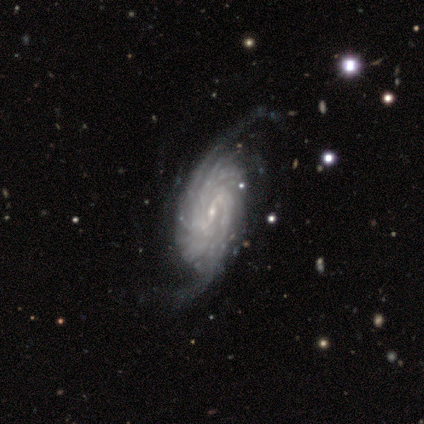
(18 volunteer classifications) Smooth or featured?
  - featured or disk: 100% *
  - smooth: 0%
  - star or artifact: 0%
Edge-on disk?
  - no: 100% *
  - yes: 0%
Bar?
  - weak: 78% *
  - strong: 22%
  - no: 0%
Spiral arms?
  - yes: 100% *
  - no: 0%
Spiral winding?
  - tight: 72% *
  - medium: 22%
  - loose: 6%
Spiral arm count?
  - can't tell: 44% *
  - more than 4: 28%
  - 3: 22%
  - 4: 6%
  - 1: 0%
  - 2: 0%
Bulge size?
  - small: 83% *
  - moderate: 11%
  - large: 6%
  - dominant: 0%
  - none: 0%
Merging?
  - none: 61% *
  - minor disturbance: 28%
  - major disturbance: 11%
  - merger: 0%